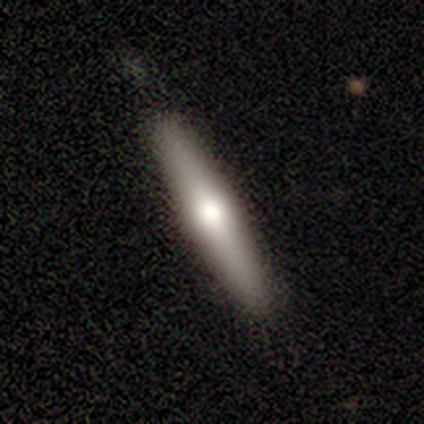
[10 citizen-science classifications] smooth-or-featured: featured or disk: 60% | smooth: 40% | star or artifact: 0%
  disk-edge-on: yes: 100% | no: 0%
    edge-on-bulge: rounded: 100% | boxy: 0% | none: 0%
  merging: none: 70% | minor disturbance: 30% | major disturbance: 0% | merger: 0%